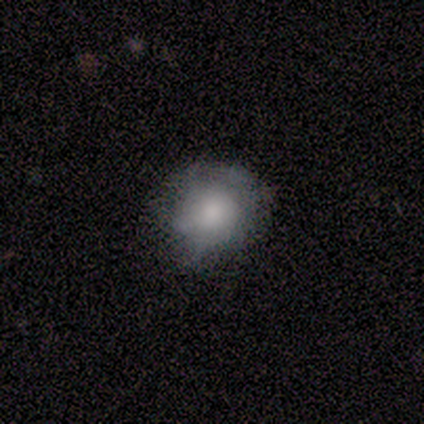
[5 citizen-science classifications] smooth 60%, featured or disk 40%, star or artifact 0%. Down the decision tree: how rounded — round (100%); merging — minor disturbance (60%).